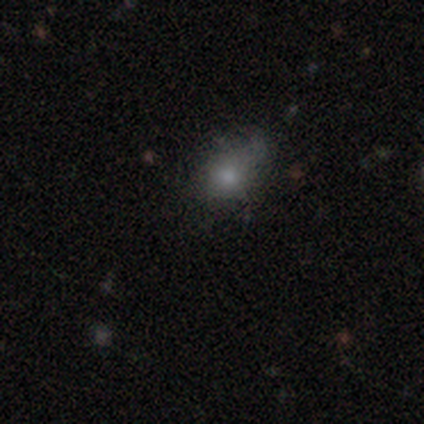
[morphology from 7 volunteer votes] A smooth galaxy with no disk features (71%) that is round (100%).

Vote fractions:
- Smooth or featured? smooth: 71% / featured or disk: 14% / star or artifact: 14%
- How rounded? round: 100% / in between: 0% / cigar-shaped: 0%
- Merging? minor disturbance: 67% / none: 33% / major disturbance: 0% / merger: 0%